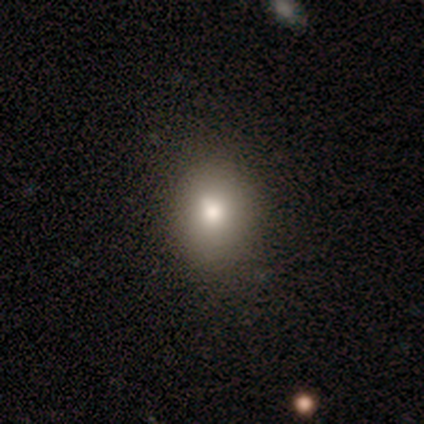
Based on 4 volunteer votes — Smooth or featured: smooth — 75% (star or artifact — 25%)
How rounded: round — 67% (in between — 33%)
Merging: none — 100%